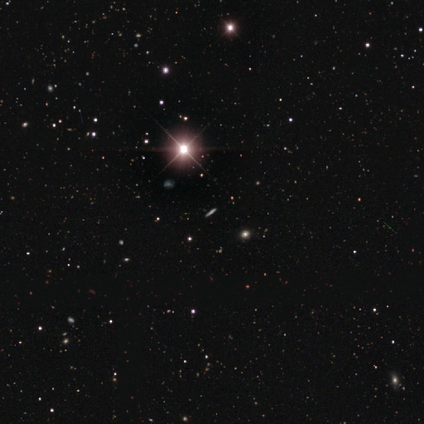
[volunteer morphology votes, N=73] A star or artifact, not a galaxy (77%).